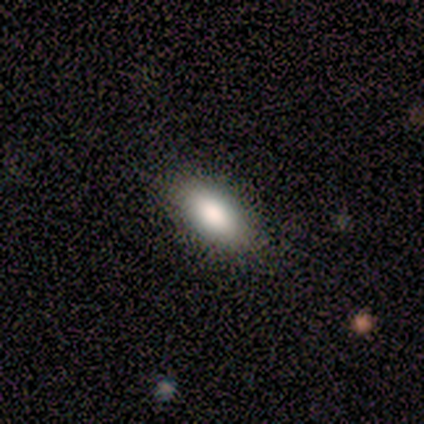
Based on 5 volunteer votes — Morphology: type=smooth (80%); roundness=in between (100%); merging=none (100%).